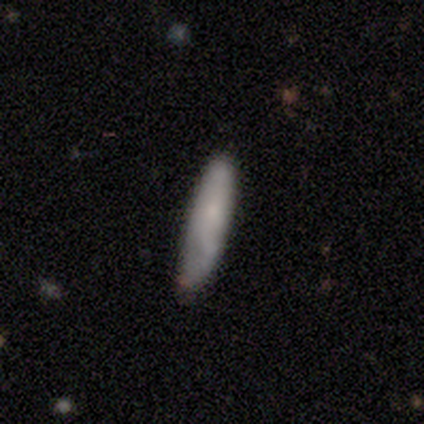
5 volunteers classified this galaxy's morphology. Smooth or featured? smooth (80%)
How rounded? in between (50%, tied with cigar-shaped)
Merging? none (60%)